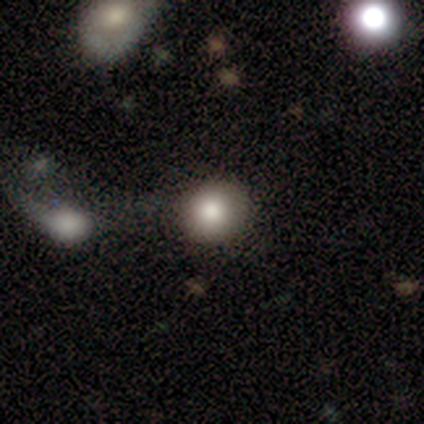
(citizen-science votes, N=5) This is clearly a smooth galaxy (100%). How rounded: clearly round (80%). Merging: clearly none (100%).